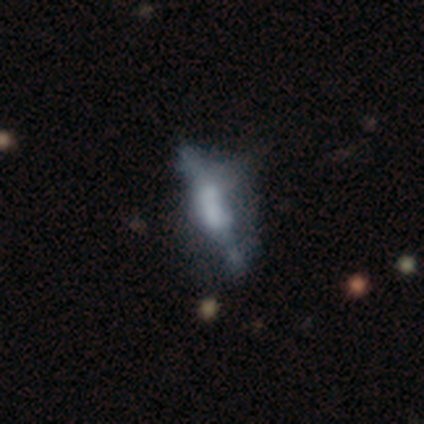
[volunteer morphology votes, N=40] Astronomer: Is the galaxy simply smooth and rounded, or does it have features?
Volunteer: featured or disk — 65%.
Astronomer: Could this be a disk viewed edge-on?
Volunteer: no — 65%.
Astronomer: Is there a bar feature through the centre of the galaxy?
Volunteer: no — 82%.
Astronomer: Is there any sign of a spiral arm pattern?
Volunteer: no — 100%.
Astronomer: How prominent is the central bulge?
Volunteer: none — 71%.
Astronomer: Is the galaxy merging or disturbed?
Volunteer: none — 35% (runner-up: major disturbance, 32%).